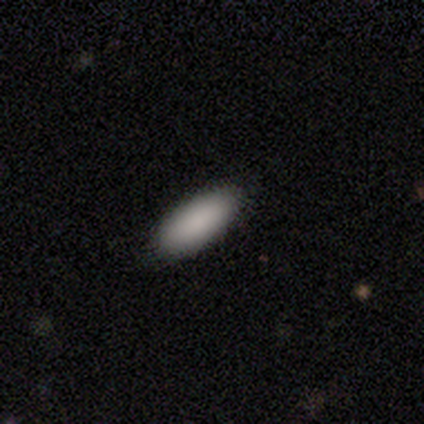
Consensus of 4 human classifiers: This appears to be a smooth galaxy with no disk features (100%) that is in between round and cigar-shaped (50%, tied with cigar-shaped). Merging: none (100%).